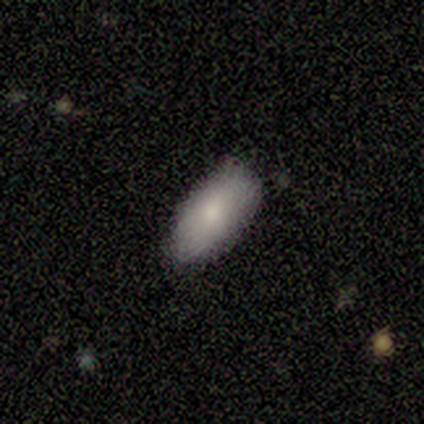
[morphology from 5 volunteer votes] Smooth or featured? 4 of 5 (80%) said smooth. How rounded? 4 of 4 (100%) said in between. Merging? 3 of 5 (60%) said none.